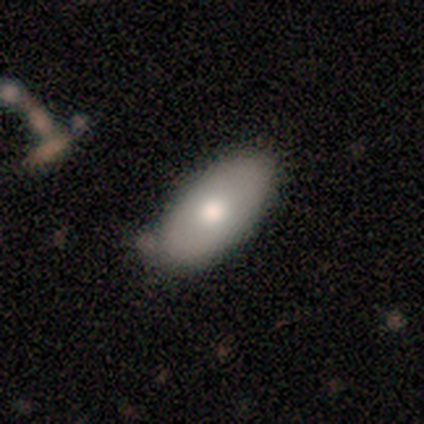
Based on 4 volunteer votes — Q: Smooth or featured?
A: smooth (75%); runner-up: featured or disk (25%)
Q: How rounded?
A: in between (100%)
Q: Merging?
A: none (100%)